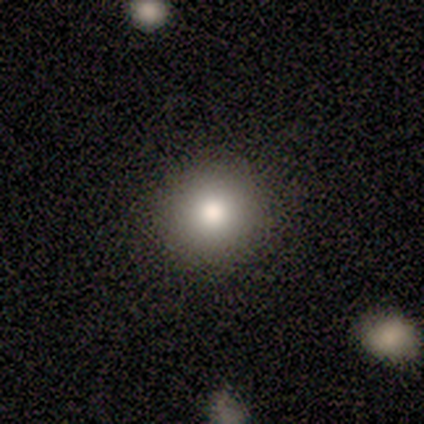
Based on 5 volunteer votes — Smooth or featured? smooth (80%)
How rounded? round (100%)
Merging? none (100%)